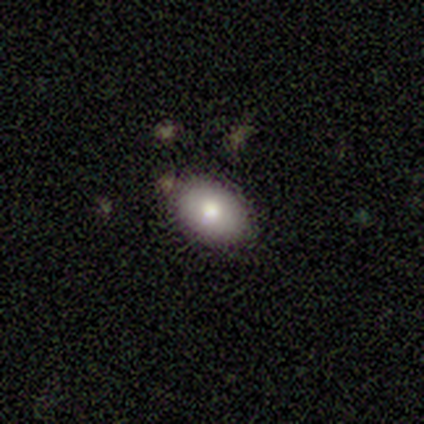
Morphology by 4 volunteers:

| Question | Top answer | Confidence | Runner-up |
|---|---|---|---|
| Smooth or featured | smooth | 75% | featured or disk (25%) |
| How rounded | in between | 100% | — |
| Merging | none | 100% | — |